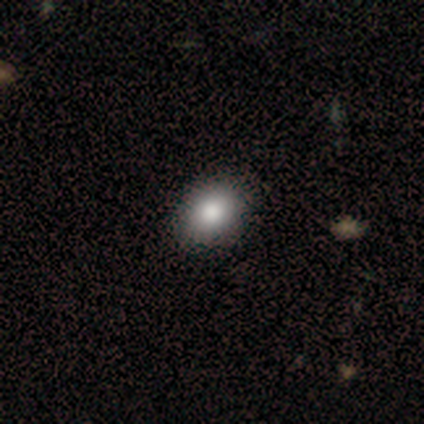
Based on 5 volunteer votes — Volunteers were most divided on "smooth or featured": smooth: 60%, featured or disk: 40%, star or artifact: 0%. More confident: merging — none (80%); how rounded — in between (67%).